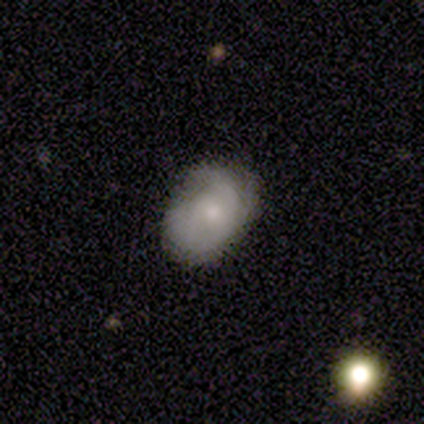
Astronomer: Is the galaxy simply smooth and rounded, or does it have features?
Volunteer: smooth — 40%, tied with featured or disk at 40%.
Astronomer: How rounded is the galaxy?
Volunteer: in between — 100%.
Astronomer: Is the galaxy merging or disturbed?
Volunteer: none — 75%.